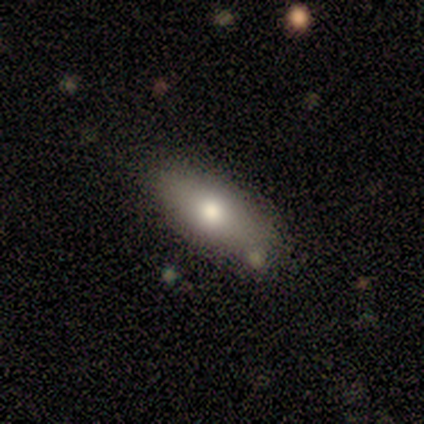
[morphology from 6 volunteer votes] Volunteers were most divided on "how rounded": in between: 83%, cigar-shaped: 17%, round: 0%. More confident: smooth or featured — smooth (100%); merging — none (100%).